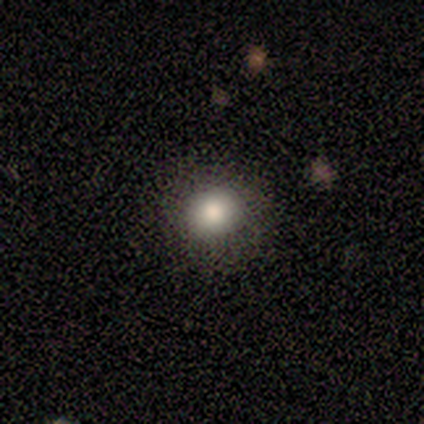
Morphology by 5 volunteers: Smooth or featured?
  - smooth: 100% *
  - featured or disk: 0%
  - star or artifact: 0%
How rounded?
  - round: 80% *
  - in between: 20%
  - cigar-shaped: 0%
Merging?
  - none: 100% *
  - minor disturbance: 0%
  - major disturbance: 0%
  - merger: 0%